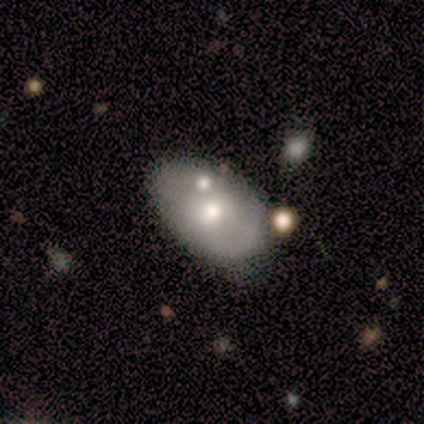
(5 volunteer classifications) Volunteers were most divided on "smooth or featured" (2-way tie): smooth: 40%, featured or disk: 40%, star or artifact: 20%; "how rounded" (2-way tie): round: 50%, in between: 50%, cigar-shaped: 0%. More confident: merging — none (75%).